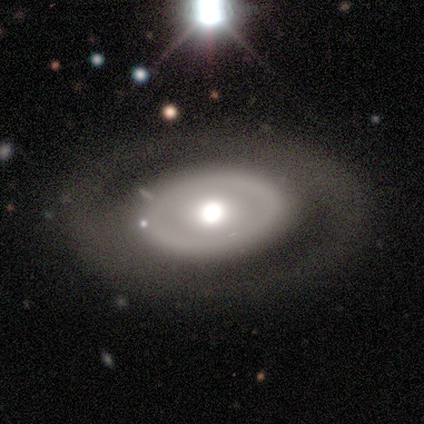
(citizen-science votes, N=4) Overall: smooth (50%, tied with featured or disk). How rounded: in between (100%). Merging: none (100%).